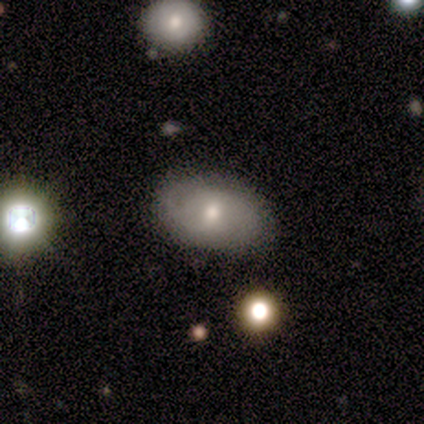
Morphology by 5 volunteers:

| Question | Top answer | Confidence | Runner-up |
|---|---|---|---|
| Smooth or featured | smooth | 60% | featured or disk (40%) |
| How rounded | in between | 100% | — |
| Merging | none | 100% | — |